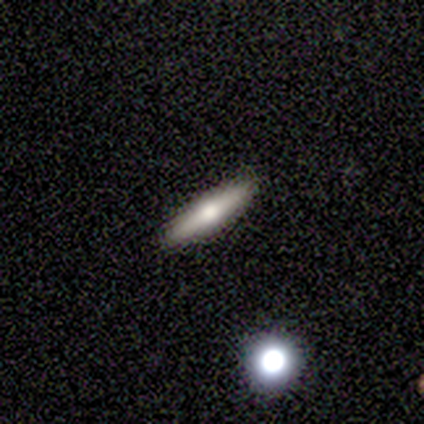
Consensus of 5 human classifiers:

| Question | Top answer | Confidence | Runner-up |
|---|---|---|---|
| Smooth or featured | featured or disk | 60% | smooth (40%) |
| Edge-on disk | yes | 100% | — |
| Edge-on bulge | rounded | 67% | none (33%) |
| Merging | none | 100% | — |